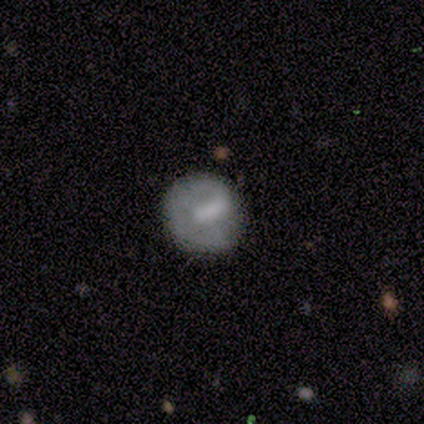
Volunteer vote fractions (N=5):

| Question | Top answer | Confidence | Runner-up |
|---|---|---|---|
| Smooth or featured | featured or disk | 60% | smooth (40%) |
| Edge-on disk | no | 100% | — |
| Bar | strong | 33% | tied: weak (33%), no (33%) |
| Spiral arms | no | 67% | yes (33%) |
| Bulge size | none | 67% | moderate (33%) |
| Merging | none | 60% | minor disturbance (20%) |